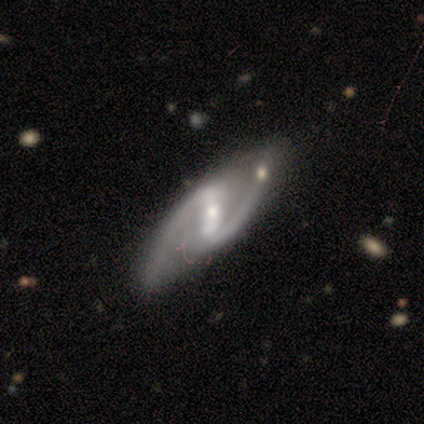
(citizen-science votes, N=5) Smooth or featured? 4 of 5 (80%) said featured or disk. Edge-on disk? 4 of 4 (100%) said no. Bar? 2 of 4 (50%, tied with weak) said strong. Spiral arms? 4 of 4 (100%) said yes. Spiral winding? 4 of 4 (100%) said medium. Spiral arm count? 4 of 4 (100%) said 2. Bulge size? 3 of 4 (75%) said small. Merging? 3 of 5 (60%) said none.